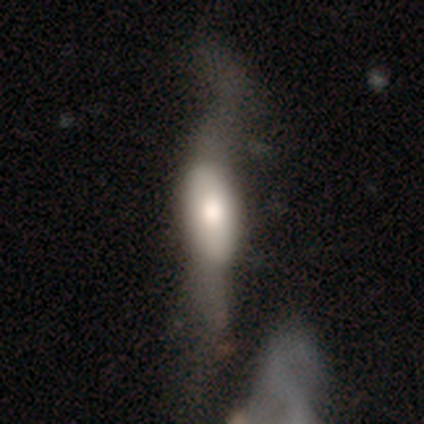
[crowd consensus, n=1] smooth_or_featured: star or artifact (p=1.00)